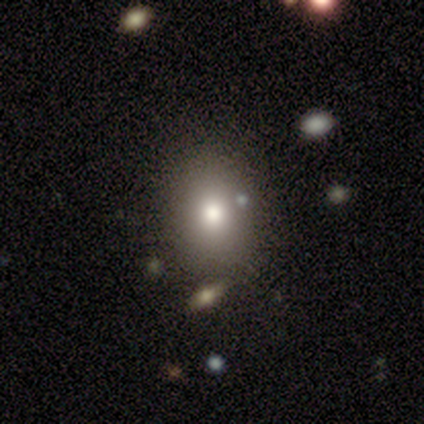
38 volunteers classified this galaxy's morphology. A smooth galaxy with no disk features (74%) that is in between round and cigar-shaped (64%).

Vote fractions:
- Smooth or featured? smooth: 74% / featured or disk: 13% / star or artifact: 13%
- How rounded? in between: 64% / round: 36% / cigar-shaped: 0%
- Merging? none: 85% / major disturbance: 6% / merger: 6% / minor disturbance: 3%